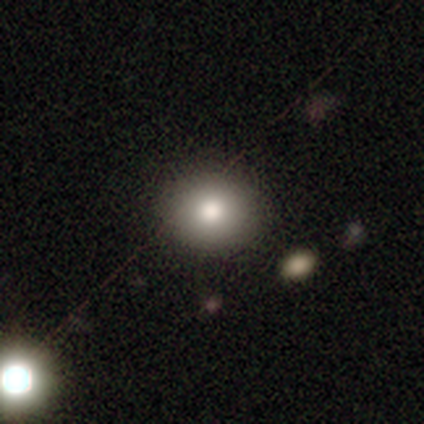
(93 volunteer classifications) A smooth galaxy with no disk features (73%) that is round (72%).

Vote fractions:
- Smooth or featured? smooth: 73% / featured or disk: 14% / star or artifact: 13%
- How rounded? round: 72% / in between: 28% / cigar-shaped: 0%
- Merging? none: 85% / minor disturbance: 7% / major disturbance: 5% / merger: 2%